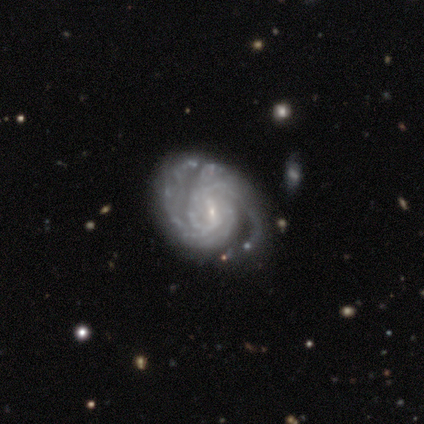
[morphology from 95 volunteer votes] This appears to be a featured or disk galaxy (94%) with a weak bar (61%), 2 (55%) tight (73%) spiral arms (98%) and a small central bulge (85%). Merging: none (76%).